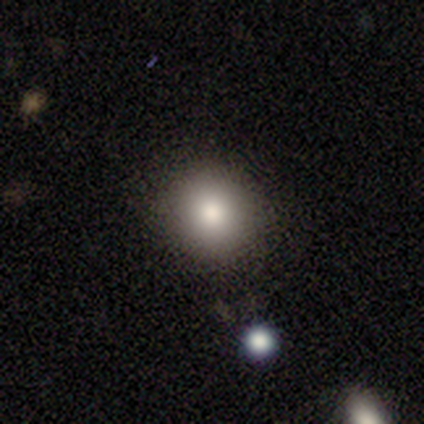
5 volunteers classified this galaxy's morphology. Smooth or featured? 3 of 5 (60%) said smooth. How rounded? 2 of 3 (67%) said round. Merging? 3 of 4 (75%) said none.